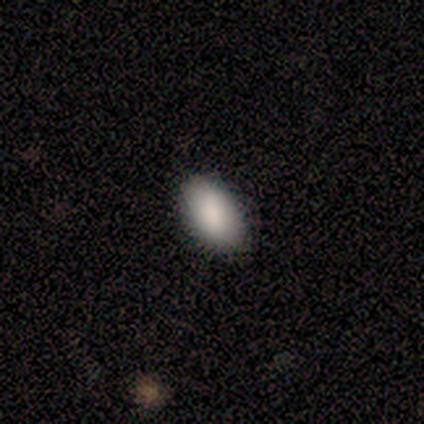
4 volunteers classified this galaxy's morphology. Consensus on every question: smooth or featured — smooth (100%); how rounded — in between (100%); merging — none (100%).